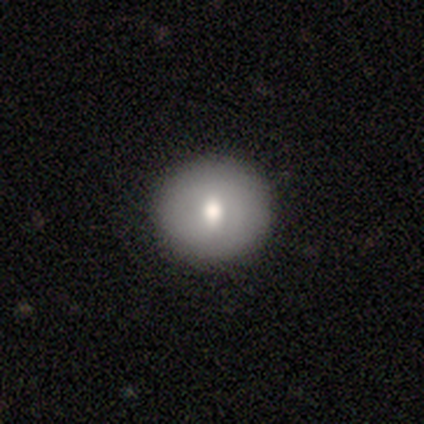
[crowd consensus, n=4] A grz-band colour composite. It shows a smooth galaxy with no disk features (50%, tied with featured or disk) that is in between round and cigar-shaped (100%). Merging: none (100%).